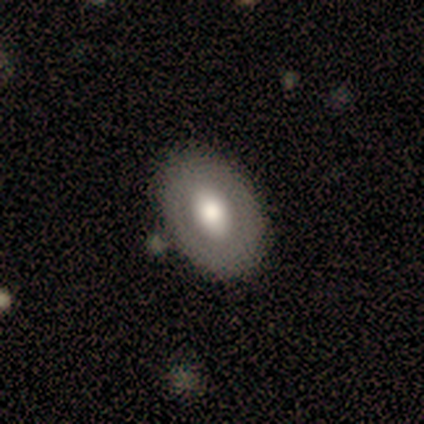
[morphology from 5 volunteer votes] smooth_or_featured: smooth (p=0.80) [alt: featured or disk p=0.20]
how_rounded: in between (p=0.75) [alt: round p=0.25]
merging: none (p=1.00)